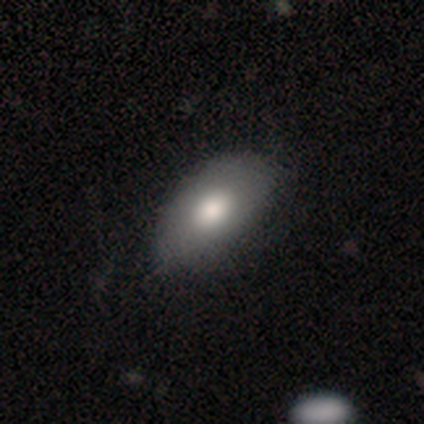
smooth_or_featured: smooth (p=0.78) [alt: featured or disk p=0.15]
how_rounded: in between (p=0.88) [alt: round p=0.12]
merging: none (p=0.55) [alt: minor disturbance p=0.16]